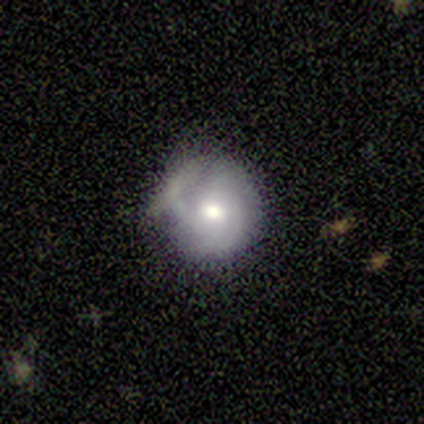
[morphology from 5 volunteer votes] Smooth or featured? featured or disk (80%)
Edge-on disk? no (100%)
Bar? no (75%)
Spiral arms? yes (100%)
Spiral winding? tight (50%, tied with medium)
Spiral arm count? 2 (50%, tied with can't tell)
Bulge size? moderate (75%)
Merging? none (40%, tied with minor disturbance)